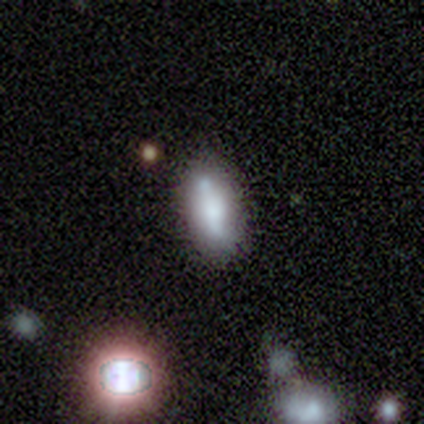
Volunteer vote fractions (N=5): smooth 40% (tied), featured or disk 40% (tied), star or artifact 20%. Down the decision tree: how rounded — in between (50%, tied with cigar-shaped); merging — none (75%).